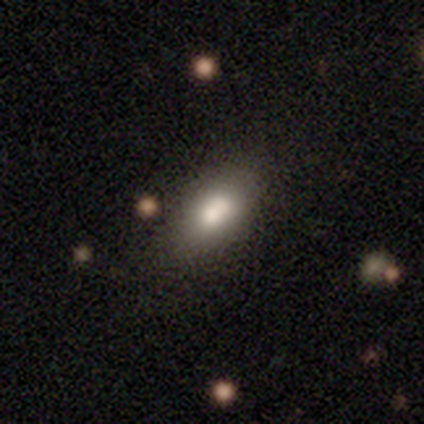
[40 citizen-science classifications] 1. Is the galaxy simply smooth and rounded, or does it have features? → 72% smooth, 20% featured or disk, 8% star or artifact.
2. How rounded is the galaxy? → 83% in between, 10% cigar-shaped, 7% round.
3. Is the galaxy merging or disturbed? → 59% none, 8% merger, 3% minor disturbance, 3% major disturbance.